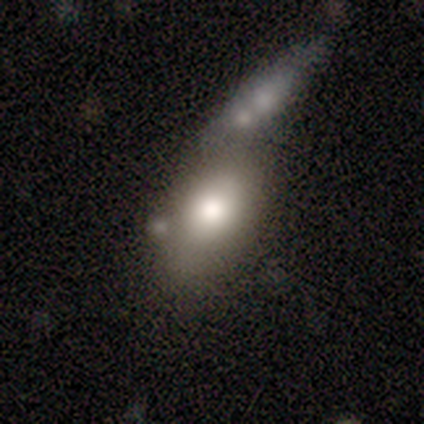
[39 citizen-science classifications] Q: Smooth or featured?
A: smooth (74%); runner-up: featured or disk (21%)
Q: How rounded?
A: in between (76%); runner-up: round (21%)
Q: Merging?
A: merger (54%); runner-up: none (22%)